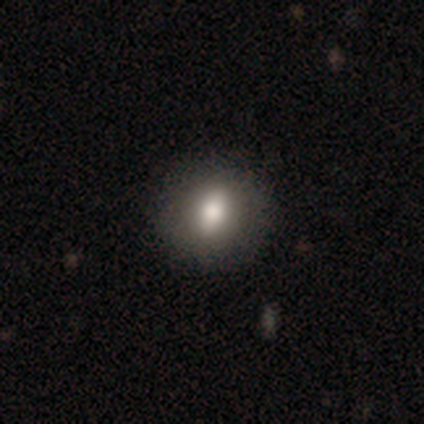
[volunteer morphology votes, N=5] This appears to be a smooth galaxy with no disk features (60%) that is round (100%). Merging: none (80%).